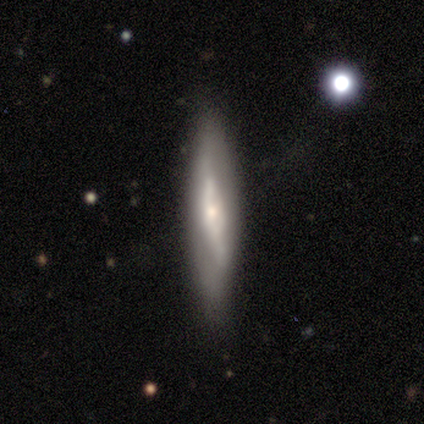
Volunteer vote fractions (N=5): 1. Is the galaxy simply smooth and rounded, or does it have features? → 60% featured or disk, 40% smooth, 0% star or artifact.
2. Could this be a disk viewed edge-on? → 100% yes, 0% no.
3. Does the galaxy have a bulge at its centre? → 67% rounded, 33% none, 0% boxy.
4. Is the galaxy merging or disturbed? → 80% none, 20% minor disturbance, 0% major disturbance, 0% merger.